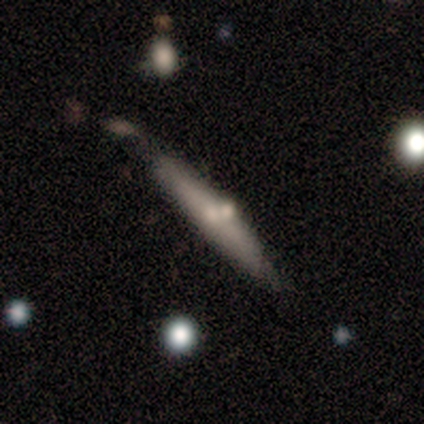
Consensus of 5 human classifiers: A featured or disk galaxy (80%) viewed edge-on (50%, tied with no) with no central bulge (50%, tied with rounded).

Vote fractions:
- Smooth or featured? featured or disk: 80% / smooth: 20% / star or artifact: 0%
- Edge-on disk? yes: 50% (tied) / no: 50% (tied)
- Edge-on bulge? none: 50% (tied) / rounded: 50% (tied) / boxy: 0%
- Merging? minor disturbance: 40% / none: 20% / major disturbance: 20% / merger: 20%